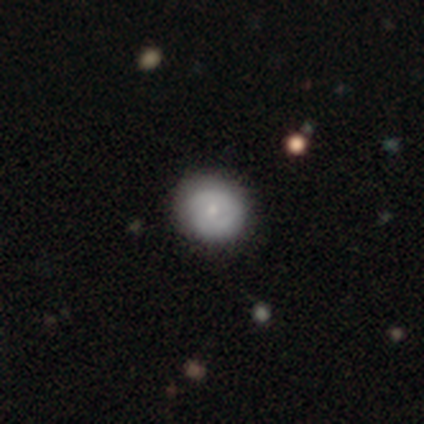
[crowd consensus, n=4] Morphology: type=featured or disk (50%); edge-on=no (100%); bar=no (100%); spiral arms=no (100%); bulge=small (100%); merging=none (100%).